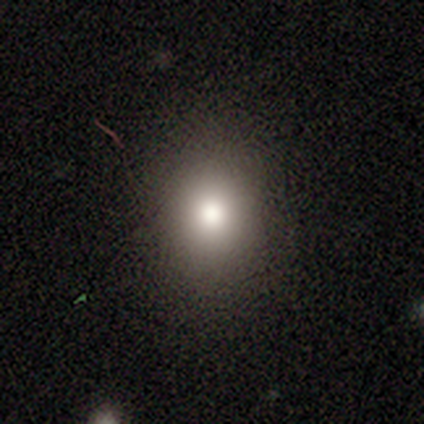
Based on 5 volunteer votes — smooth-or-featured: smooth: 100% | featured or disk: 0% | star or artifact: 0%
  how-rounded: in between: 60% | round: 40% | cigar-shaped: 0%
  merging: none: 100% | minor disturbance: 0% | major disturbance: 0% | merger: 0%